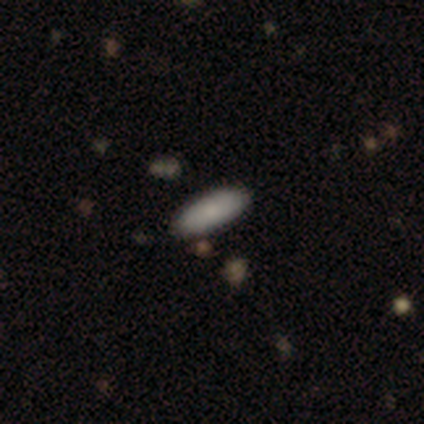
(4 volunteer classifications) This is clearly a smooth galaxy (100%). How rounded: likely in between (75%). Merging: clearly none (100%).